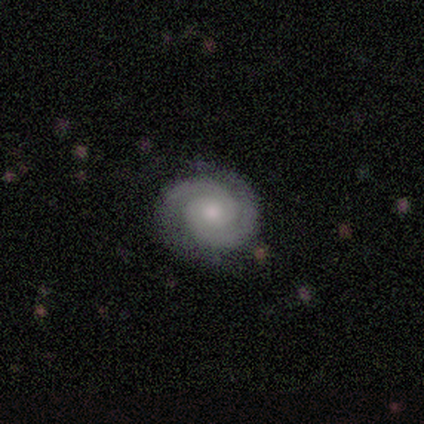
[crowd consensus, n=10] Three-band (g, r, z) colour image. It shows a featured or disk galaxy (70%) with a weak bar (57%), 2 (100%) tight (71%) spiral arms (100%) and a moderate central bulge (57%). Merging: none (56%).